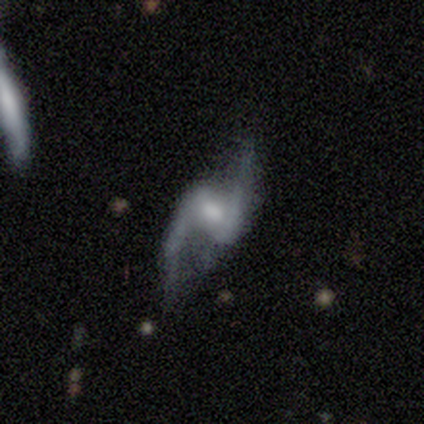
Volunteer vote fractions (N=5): smooth-or-featured: featured or disk: 100% | smooth: 0% | star or artifact: 0%
  disk-edge-on: no: 100% | yes: 0%
    bar: strong: 60% | weak: 40% | no: 0%
    has-spiral-arms: yes: 80% | no: 20%
      spiral-winding: loose: 100% | tight: 0% | medium: 0%
      spiral-arm-count: 2: 100% | 1: 0% | 3: 0% | 4: 0% | more than 4: 0% | can't tell: 0%
    bulge-size: moderate: 80% | small: 20% | dominant: 0% | large: 0% | none: 0%
  merging: none: 80% | minor disturbance: 20% | major disturbance: 0% | merger: 0%